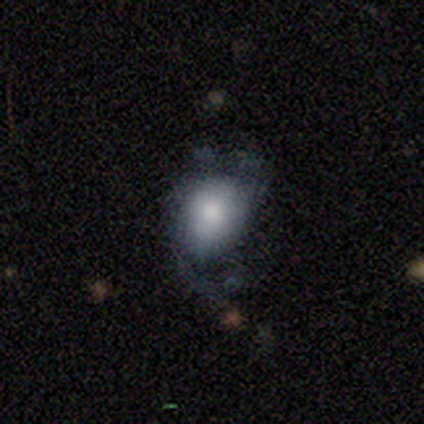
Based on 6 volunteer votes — Smooth or featured? smooth (83%)
How rounded? round (60%)
Merging? none (67%)